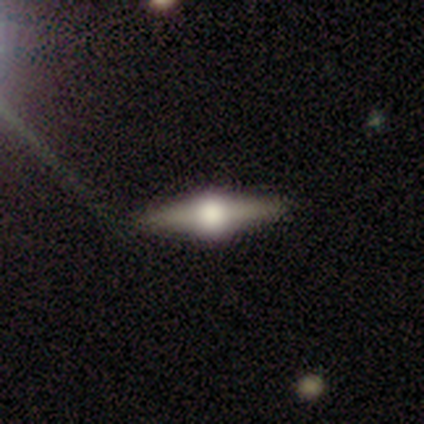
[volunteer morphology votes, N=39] featured or disk 74%, smooth 21%, star or artifact 5%. Down the decision tree: edge-on disk — yes (100%); edge-on bulge — rounded (100%); merging — none (95%).